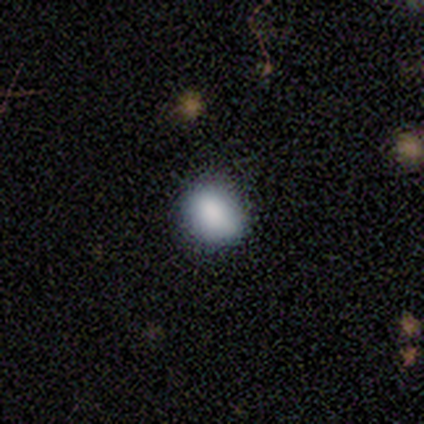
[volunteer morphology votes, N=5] Smooth or featured?
  - smooth: 80% *
  - star or artifact: 20%
  - featured or disk: 0%
How rounded?
  - round: 75% *
  - in between: 25%
  - cigar-shaped: 0%
Merging?
  - none: 50% * (tied)
  - minor disturbance: 50% * (tied)
  - major disturbance: 0%
  - merger: 0%